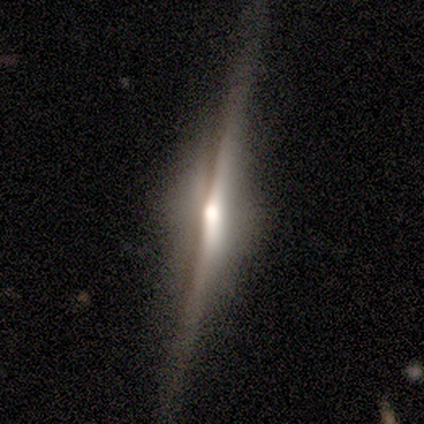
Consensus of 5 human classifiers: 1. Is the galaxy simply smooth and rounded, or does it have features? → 100% featured or disk, 0% smooth, 0% star or artifact.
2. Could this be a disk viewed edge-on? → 100% yes, 0% no.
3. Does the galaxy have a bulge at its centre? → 60% rounded, 40% boxy, 0% none.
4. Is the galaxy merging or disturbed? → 80% none, 20% minor disturbance, 0% major disturbance, 0% merger.